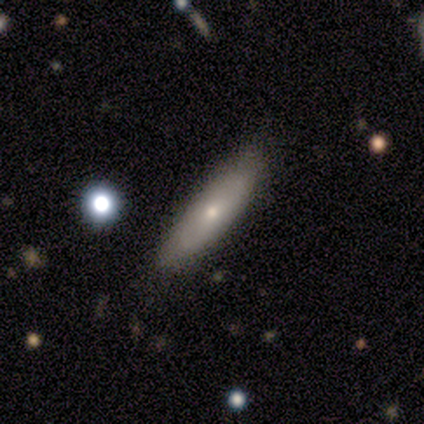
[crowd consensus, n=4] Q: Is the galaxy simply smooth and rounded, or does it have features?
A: smooth — 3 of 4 (75%).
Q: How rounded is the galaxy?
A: cigar-shaped — 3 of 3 (100%).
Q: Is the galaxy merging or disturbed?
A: none — 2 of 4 (50%, tied with minor disturbance).